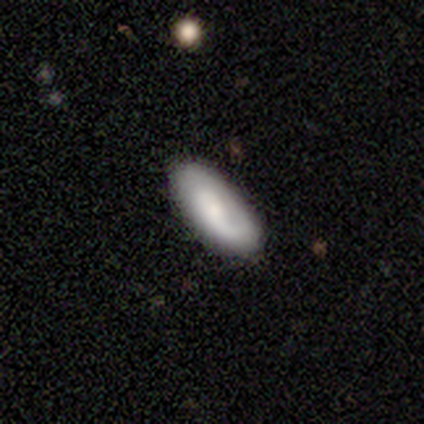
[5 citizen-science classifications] Morphology: type=smooth (60%); roundness=in between (100%); merging=none (80%).